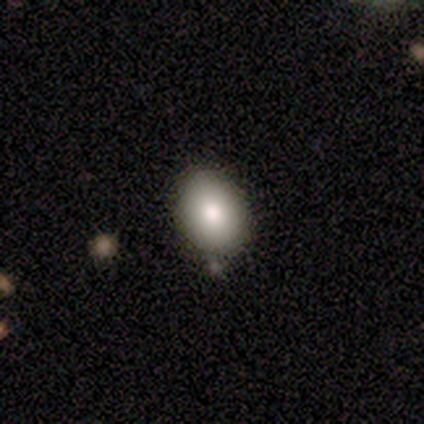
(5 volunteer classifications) Morphology: type=smooth (80%); roundness=round (50%, tied with in between); merging=none (100%).